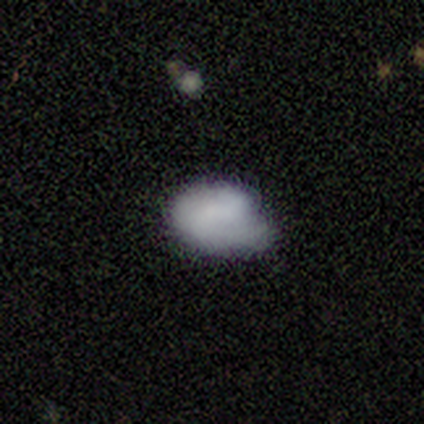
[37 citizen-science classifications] Q: Smooth or featured?
A: smooth (70%); runner-up: featured or disk (24%)
Q: How rounded?
A: in between (88%); runner-up: round (12%)
Q: Merging?
A: minor disturbance (49%); runner-up: none (43%)